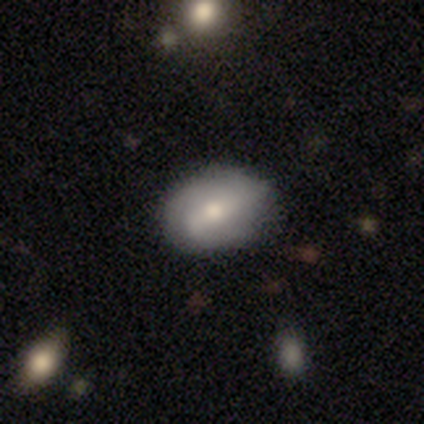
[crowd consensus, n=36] Smooth or featured?
  - featured or disk: 58% *
  - smooth: 39%
  - star or artifact: 3%
Edge-on disk?
  - no: 81% *
  - yes: 19%
Bar?
  - strong: 41% *
  - weak: 35%
  - no: 24%
Spiral arms?
  - yes: 76% *
  - no: 24%
Spiral winding?
  - loose: 46% *
  - tight: 38%
  - medium: 15%
Spiral arm count?
  - 2: 46% *
  - can't tell: 31%
  - 1: 23%
  - 3: 0%
  - 4: 0%
  - more than 4: 0%
Bulge size?
  - moderate: 53% *
  - large: 18%
  - small: 18%
  - dominant: 6%
  - none: 6%
Merging?
  - none: 71% *
  - minor disturbance: 17%
  - major disturbance: 11%
  - merger: 0%